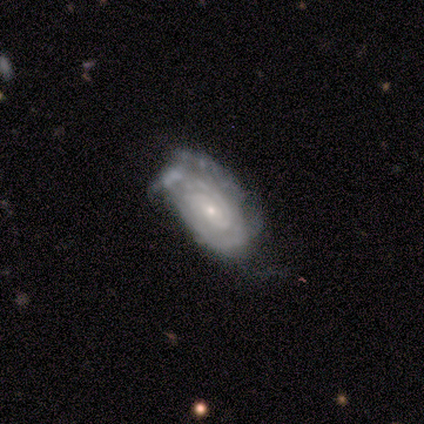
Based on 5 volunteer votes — Volunteers were most divided on "spiral arm count" (2-way tie): 2: 50%, can't tell: 50%, 1: 0%, 3: 0%, 4: 0%, more than 4: 0%; "merging" (2-way tie): none: 40%, major disturbance: 40%, minor disturbance: 20%, merger: 0%. More confident: smooth or featured — featured or disk (100%); edge-on disk — no (100%); bar — no (100%); spiral winding — tight (100%); bulge size — small (100%); spiral arms — yes (80%).